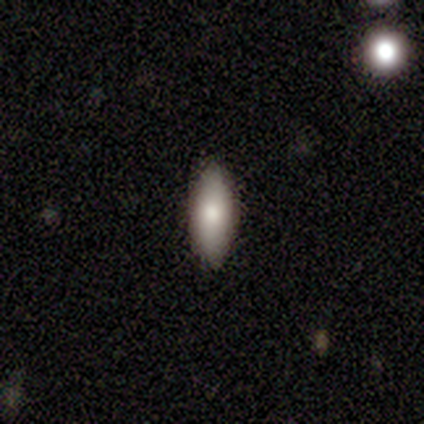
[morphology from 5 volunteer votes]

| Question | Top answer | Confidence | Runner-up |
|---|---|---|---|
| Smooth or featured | smooth | 80% | featured or disk (20%) |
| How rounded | in between | 75% | cigar-shaped (25%) |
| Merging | none | 80% | minor disturbance (20%) |